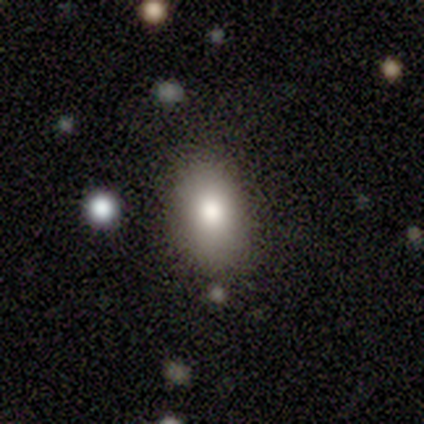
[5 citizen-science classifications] Smooth or featured? 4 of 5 (80%) said smooth. How rounded? 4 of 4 (100%) said in between. Merging? 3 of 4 (75%) said none.